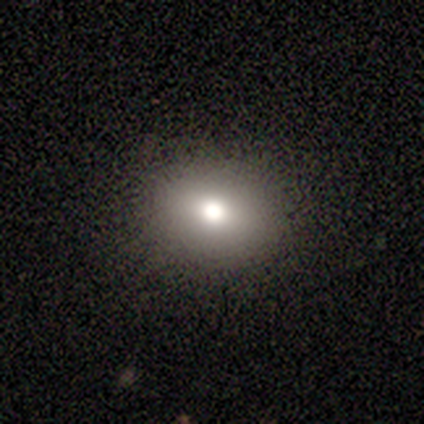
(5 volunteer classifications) A smooth galaxy with no disk features (80%) that is round (50%, tied with in between). Merging: none (100%).